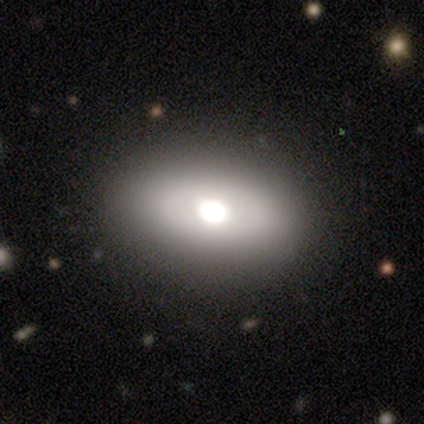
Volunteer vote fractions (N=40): Overall: smooth (62%; featured or disk 30%). How rounded: in between (92%). Merging: none (86%).